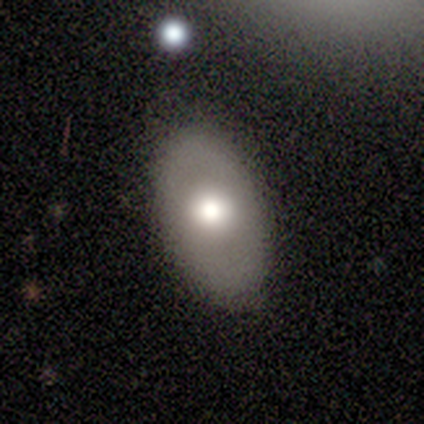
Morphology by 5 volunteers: Q: Smooth or featured?
A: featured or disk (60%); runner-up: smooth (40%)
Q: Edge-on disk?
A: no (100%)
Q: Bar?
A: no (100%)
Q: Spiral arms?
A: no (100%)
Q: Bulge size?
A: moderate (67%); runner-up: large (33%)
Q: Merging?
A: none (100%)